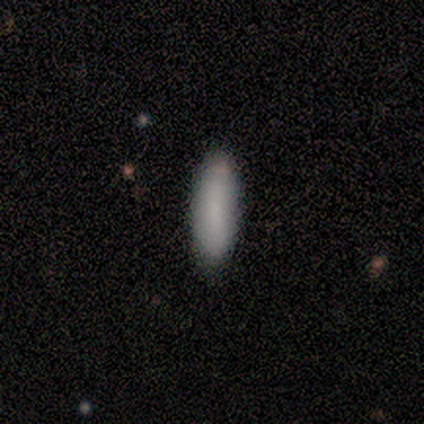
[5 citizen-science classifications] smooth_or_featured: smooth (p=0.80) [alt: featured or disk p=0.20]
how_rounded: cigar-shaped (p=0.75) [alt: in between p=0.25]
merging: none (p=0.80) [alt: minor disturbance p=0.20]